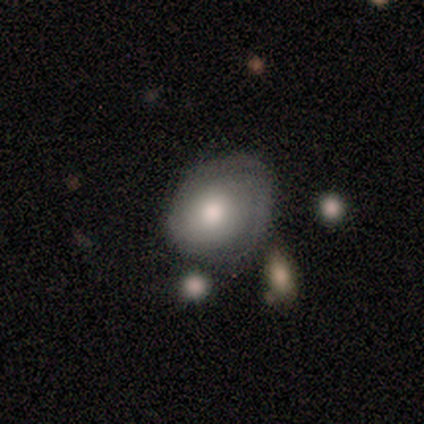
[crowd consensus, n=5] Smooth or featured?
  - featured or disk: 80% *
  - smooth: 20%
  - star or artifact: 0%
Edge-on disk?
  - no: 100% *
  - yes: 0%
Bar?
  - no: 75% *
  - weak: 25%
  - strong: 0%
Spiral arms?
  - yes: 100% *
  - no: 0%
Spiral winding?
  - tight: 50% * (tied)
  - medium: 50% * (tied)
  - loose: 0%
Spiral arm count?
  - 2: 75% *
  - 3: 25%
  - 1: 0%
  - 4: 0%
  - more than 4: 0%
  - can't tell: 0%
Bulge size?
  - large: 50% * (tied)
  - moderate: 50% * (tied)
  - dominant: 0%
  - small: 0%
  - none: 0%
Merging?
  - none: 40% *
  - minor disturbance: 20%
  - major disturbance: 20%
  - merger: 20%